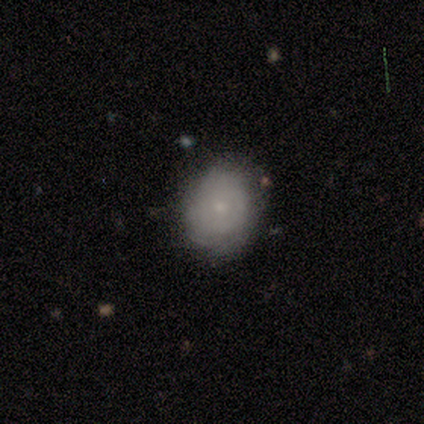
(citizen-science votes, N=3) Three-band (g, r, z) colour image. It shows a smooth galaxy with no disk features (67%) that is in between round and cigar-shaped (100%). Merging: none (100%).